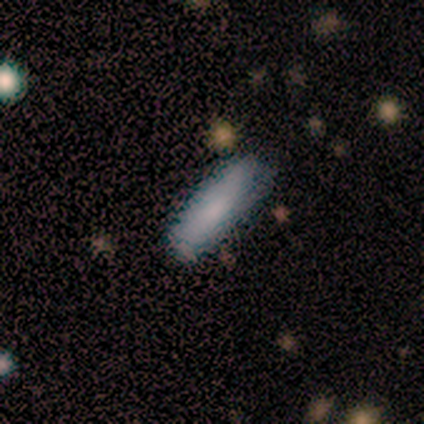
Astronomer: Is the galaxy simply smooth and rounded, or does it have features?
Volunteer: smooth — 75%.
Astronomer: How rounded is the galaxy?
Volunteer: cigar-shaped — 67%.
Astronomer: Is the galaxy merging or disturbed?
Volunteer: none — 75%.